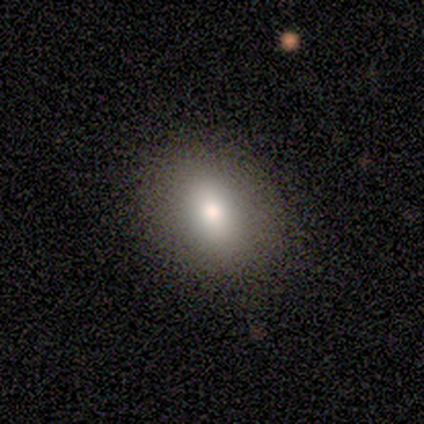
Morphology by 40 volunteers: Smooth or featured: smooth — 78% (featured or disk — 15%)
How rounded: in between — 68% (round — 32%)
Merging: none — 54% (merger — 11%)